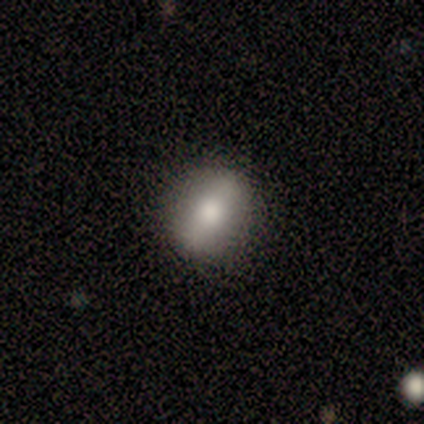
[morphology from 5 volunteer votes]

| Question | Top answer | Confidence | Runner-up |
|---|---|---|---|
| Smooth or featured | smooth | 80% | featured or disk (20%) |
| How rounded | round | 75% | in between (25%) |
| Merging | none | 100% | — |